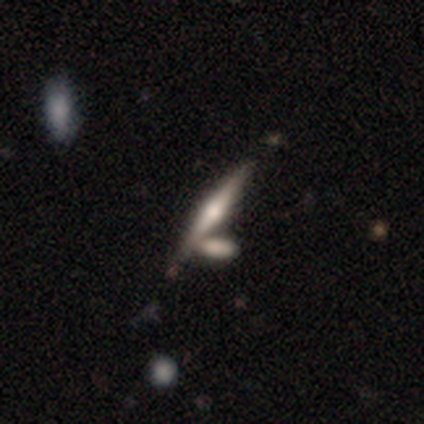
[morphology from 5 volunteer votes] featured or disk 100%, smooth 0%, star or artifact 0%. Down the decision tree: edge-on disk — yes (100%); edge-on bulge — rounded (100%); merging — none (80%).